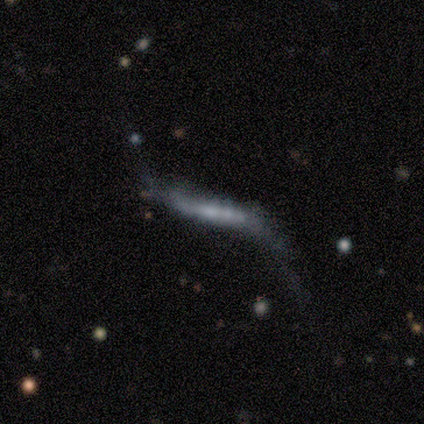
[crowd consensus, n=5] This appears to be a smooth galaxy with no disk features (40%, tied with featured or disk) that is cigar-shaped (100%). Merging: none (50%).